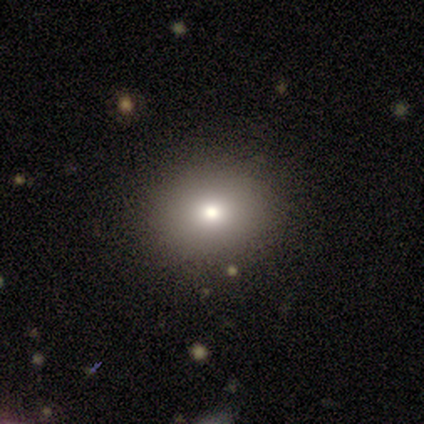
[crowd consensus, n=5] Q: Smooth or featured?
A: smooth (60%); runner-up: featured or disk (20%)
Q: How rounded?
A: round (100%)
Q: Merging?
A: none (100%)